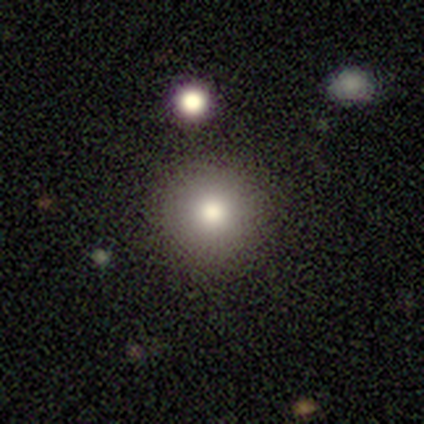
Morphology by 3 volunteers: A smooth galaxy with no disk features (67%) that is round (100%).

Vote fractions:
- Smooth or featured? smooth: 67% / star or artifact: 33% / featured or disk: 0%
- How rounded? round: 100% / in between: 0% / cigar-shaped: 0%
- Merging? none: 100% / minor disturbance: 0% / major disturbance: 0% / merger: 0%